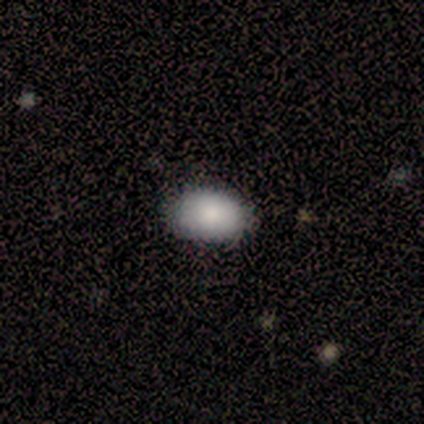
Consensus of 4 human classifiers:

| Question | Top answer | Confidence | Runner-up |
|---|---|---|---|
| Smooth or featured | smooth | 100% | — |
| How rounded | in between | 75% | round (25%) |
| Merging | none | 75% | minor disturbance (25%) |